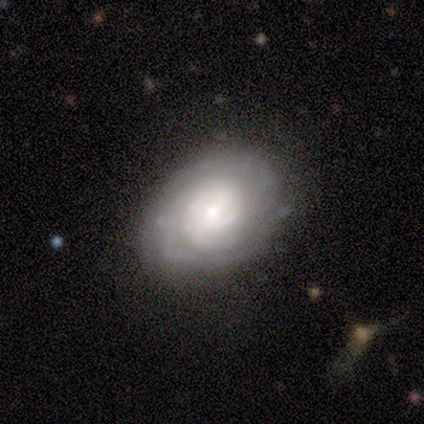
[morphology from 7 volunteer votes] Smooth or featured? 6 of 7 (86%) said featured or disk. Edge-on disk? 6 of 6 (100%) said no. Bar? 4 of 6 (67%) said no. Spiral arms? 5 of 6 (83%) said yes. Spiral winding? 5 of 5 (100%) said tight. Spiral arm count? 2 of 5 (40%) said can't tell. Bulge size? 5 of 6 (83%) said small. Merging? 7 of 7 (100%) said none.